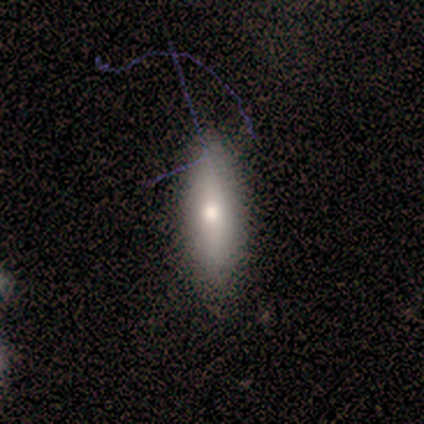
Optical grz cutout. It shows a smooth galaxy with no disk features (50%) that is in between round and cigar-shaped (50%, tied with cigar-shaped). Merging: none (67%).